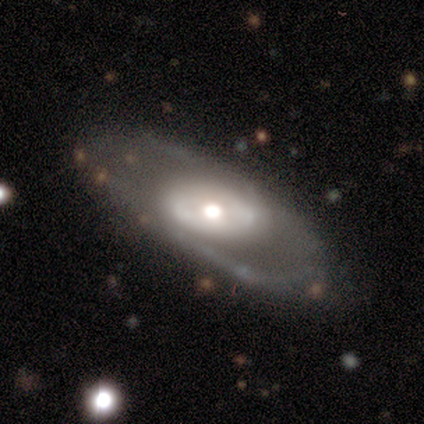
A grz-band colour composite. It shows a featured or disk galaxy (88%) with a weak bar (50%, tied with no), 2 (60%) loose (80%) spiral arms (83%) and a large central bulge (50%, tied with moderate). Merging: none (50%).